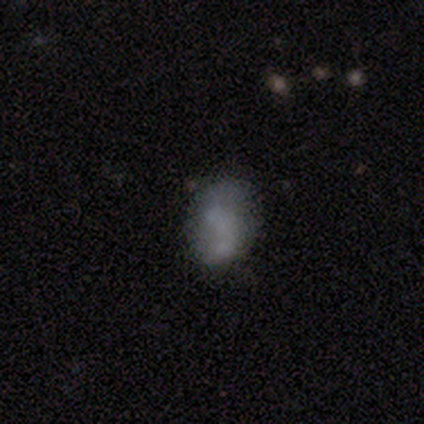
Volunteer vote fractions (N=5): Smooth or featured? 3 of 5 (60%) said smooth. How rounded? 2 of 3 (67%) said round. Merging? 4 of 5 (80%) said none.